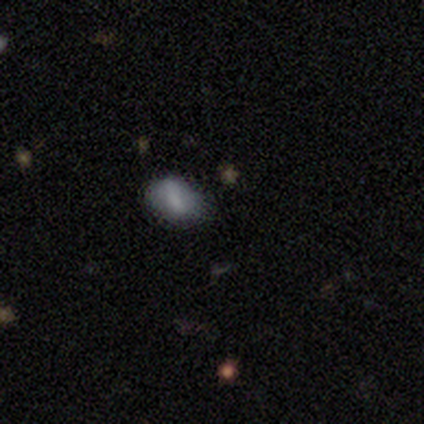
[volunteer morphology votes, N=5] smooth_or_featured: smooth (p=0.80) [alt: featured or disk p=0.20]
how_rounded: round (p=0.50) [tied with: in between p=0.50]
merging: none (p=1.00)